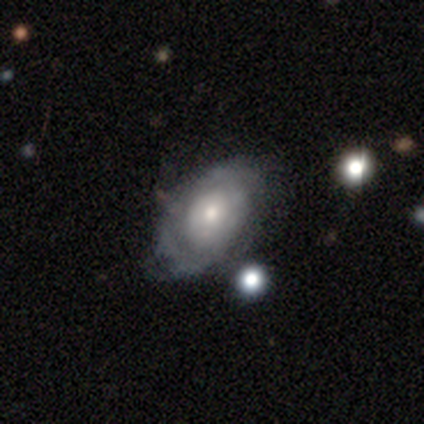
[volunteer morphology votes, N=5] This is likely a smooth galaxy (60%). How rounded: clearly in between (100%). Merging: clearly none (100%).